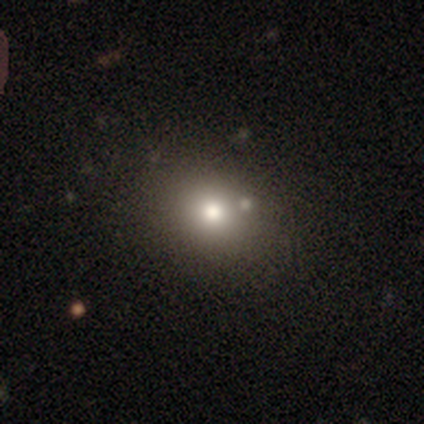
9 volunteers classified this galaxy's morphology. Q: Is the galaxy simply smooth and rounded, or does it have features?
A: smooth — 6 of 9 (67%).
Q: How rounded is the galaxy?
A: round — 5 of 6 (83%).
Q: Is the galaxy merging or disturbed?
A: none — 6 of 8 (75%).